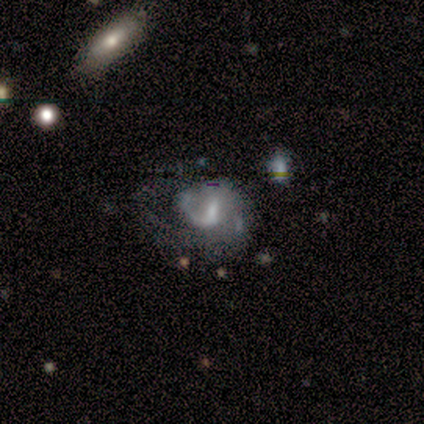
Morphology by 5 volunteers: Overall: featured or disk (60%; star or artifact 40%). Edge-on disk: no (100%). Bar: weak (100%). Spiral arms: yes (100%). Spiral arm count: 2 (67%; 1 33%). Spiral winding: medium (67%; loose 33%). Bulge size: large (33%, tied with moderate and none). Merging: minor disturbance (100%).